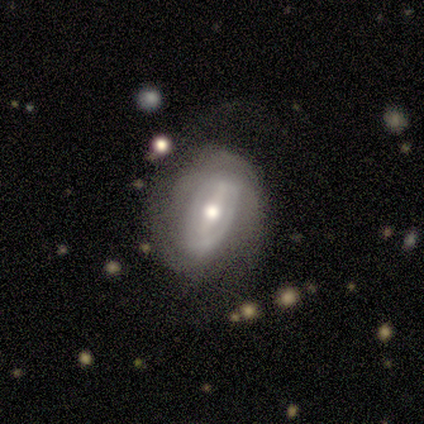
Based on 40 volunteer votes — smooth_or_featured: featured or disk (p=0.78) [alt: smooth p=0.12]
disk_edge_on: no (p=0.97) [alt: yes p=0.03]
bar: strong (p=0.43) [tied with: weak p=0.43]
has_spiral_arms: yes (p=0.80) [alt: no p=0.20]
spiral_winding: tight (p=0.46) [alt: medium p=0.29]
spiral_arm_count: 2 (p=0.50) [alt: can't tell p=0.42]
bulge_size: moderate (p=0.83) [alt: small p=0.13]
merging: none (p=0.58) [alt: minor disturbance p=0.28]